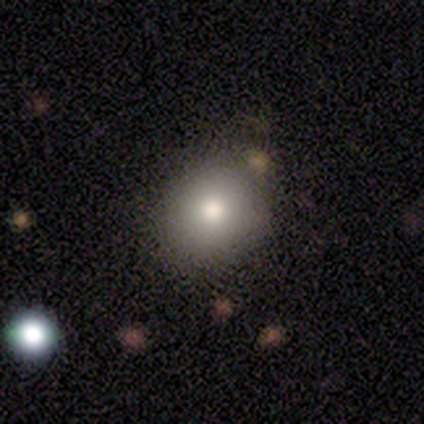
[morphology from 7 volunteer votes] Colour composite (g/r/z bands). It shows a smooth galaxy with no disk features (86%) that is round (100%). Merging: none (67%).